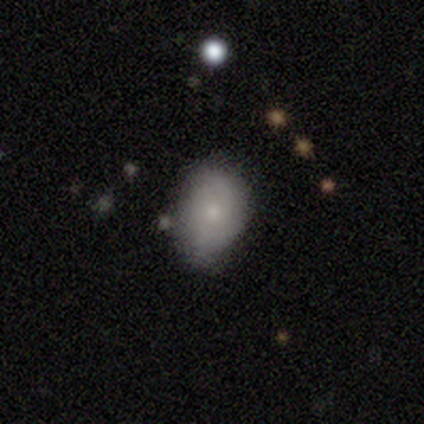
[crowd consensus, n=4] Smooth or featured: smooth — 75% (featured or disk — 25%)
How rounded: in between — 100%
Merging: minor disturbance — 75% (none — 25%)